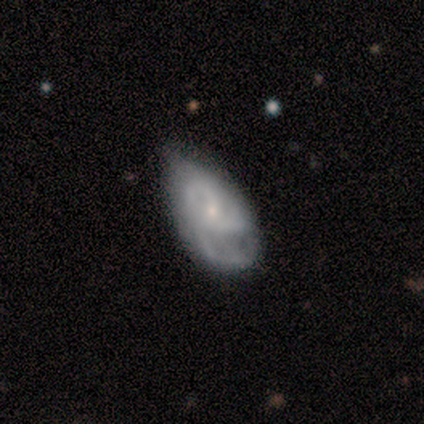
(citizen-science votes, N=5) Smooth or featured? featured or disk (80%)
Edge-on disk? no (100%)
Bar? no (100%)
Spiral arms? yes (75%)
Spiral winding? medium (100%)
Spiral arm count? 3 (100%)
Bulge size? small (75%)
Merging? minor disturbance (60%)